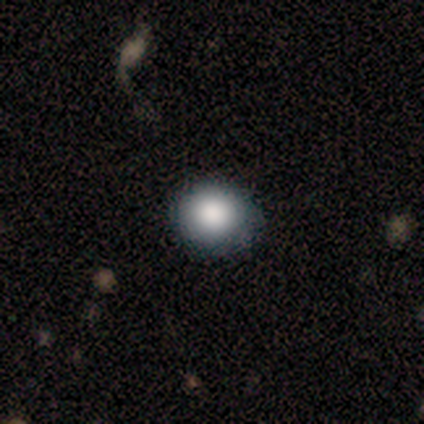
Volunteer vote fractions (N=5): This appears to be a smooth galaxy with no disk features (80%) that is round (100%). Merging: none (80%).